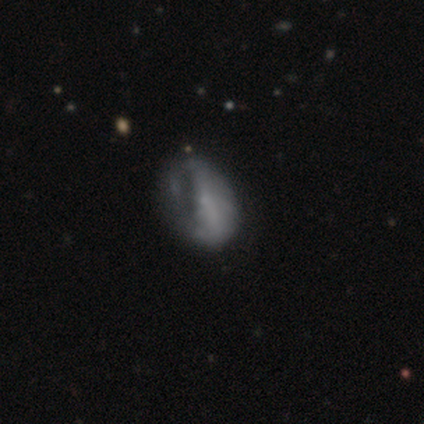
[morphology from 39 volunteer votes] featured or disk 56%, smooth 41%, star or artifact 3%. Down the decision tree: edge-on disk — no (95%); bar — no (71%); spiral arms — no (71%); bulge size — none (52%); merging — none (29%).